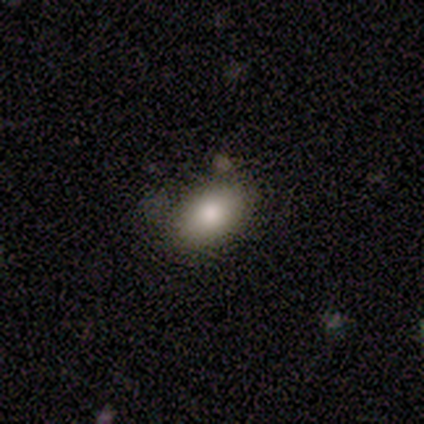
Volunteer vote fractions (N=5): smooth_or_featured: smooth (p=0.80) [alt: featured or disk p=0.20]
how_rounded: in between (p=1.00)
merging: none (p=0.80) [alt: merger p=0.20]